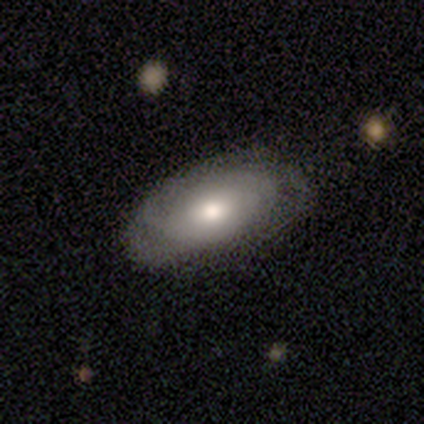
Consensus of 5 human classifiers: Q: Smooth or featured?
A: smooth (80%); runner-up: featured or disk (20%)
Q: How rounded?
A: in between (75%); runner-up: cigar-shaped (25%)
Q: Merging?
A: none (80%); runner-up: minor disturbance (20%)